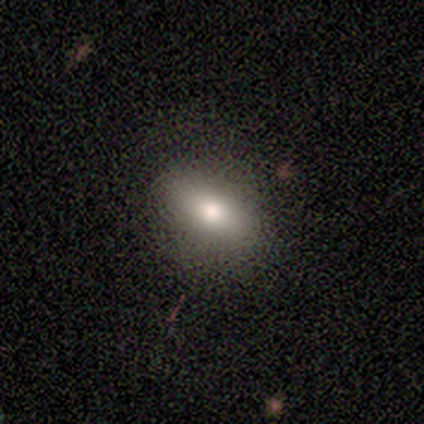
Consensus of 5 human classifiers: Overall: smooth (100%). How rounded: in between (100%). Merging: none (60%; minor disturbance 20%).